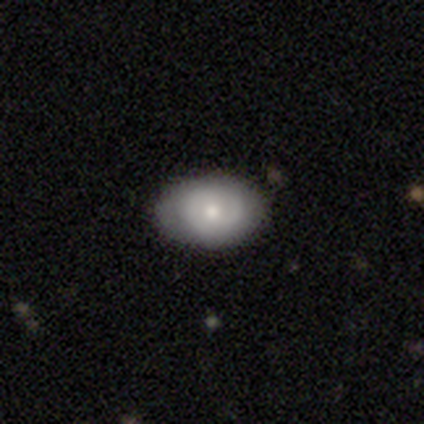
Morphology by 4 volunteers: featured or disk 75%, smooth 25%, star or artifact 0%. Down the decision tree: edge-on disk — no (67%); bar — no (100%); spiral arms — yes (50%, tied with no); spiral arm count — 2 (100%); spiral winding — medium (100%); bulge size — small (100%); merging — none (50%).